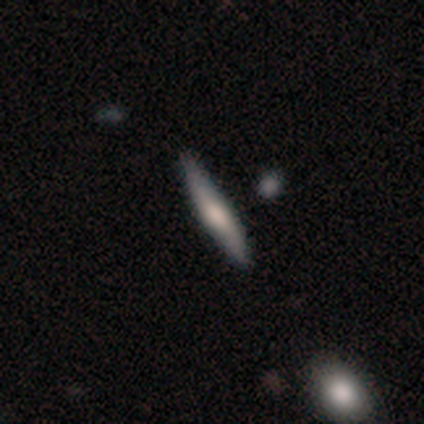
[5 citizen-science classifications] A smooth galaxy with no disk features (80%) that is cigar-shaped (100%).

Vote fractions:
- Smooth or featured? smooth: 80% / featured or disk: 20% / star or artifact: 0%
- How rounded? cigar-shaped: 100% / round: 0% / in between: 0%
- Merging? none: 80% / minor disturbance: 20% / major disturbance: 0% / merger: 0%